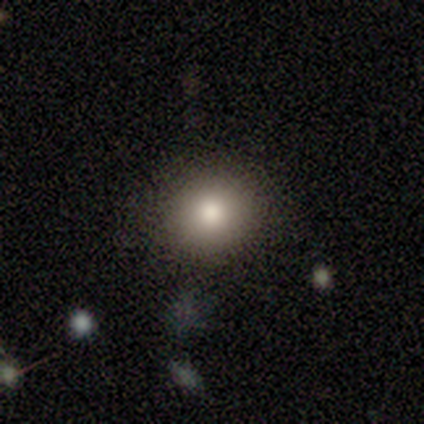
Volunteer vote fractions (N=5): This appears to be a smooth galaxy with no disk features (100%) that is round (80%). Merging: none (100%).